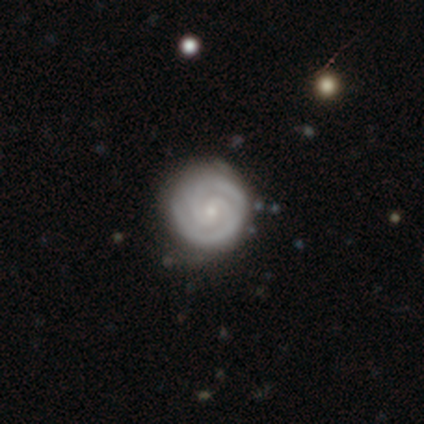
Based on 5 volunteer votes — Overall: featured or disk (100%). Edge-on disk: no (100%). Bar: no (60%; strong 20%). Spiral arms: yes (100%). Spiral arm count: 2 (80%). Spiral winding: tight (60%; medium 40%). Bulge size: small (60%; large 20%). Merging: none (80%).